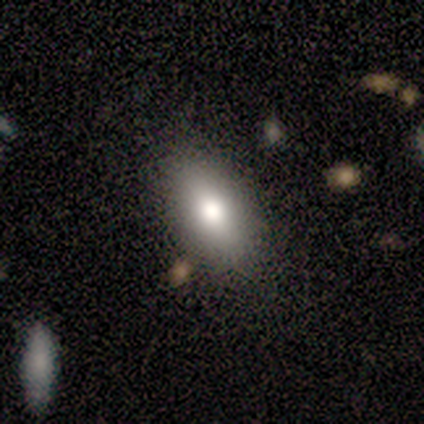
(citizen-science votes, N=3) smooth_or_featured: smooth (p=1.00)
how_rounded: in between (p=1.00)
merging: none (p=1.00)